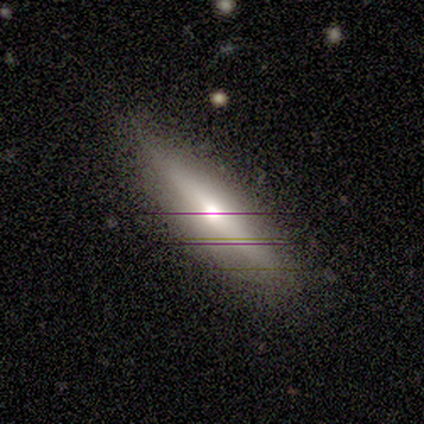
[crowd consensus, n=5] Smooth or featured? 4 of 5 (80%) said featured or disk. Edge-on disk? 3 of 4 (75%) said yes. Edge-on bulge? 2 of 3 (67%) said rounded. Merging? 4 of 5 (80%) said none.